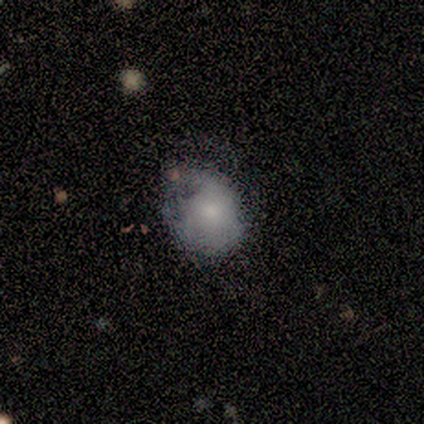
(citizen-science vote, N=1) Consensus on every question: smooth or featured — smooth (100%); how rounded — round (100%); merging — major disturbance (100%).